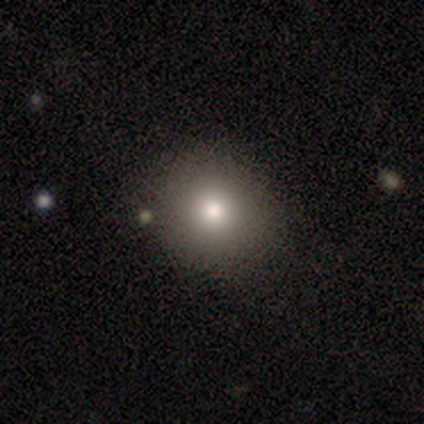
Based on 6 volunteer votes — smooth-or-featured: smooth: 67% | star or artifact: 33% | featured or disk: 0%
  how-rounded: round: 75% | in between: 25% | cigar-shaped: 0%
  merging: none: 75% | minor disturbance: 25% | major disturbance: 0% | merger: 0%